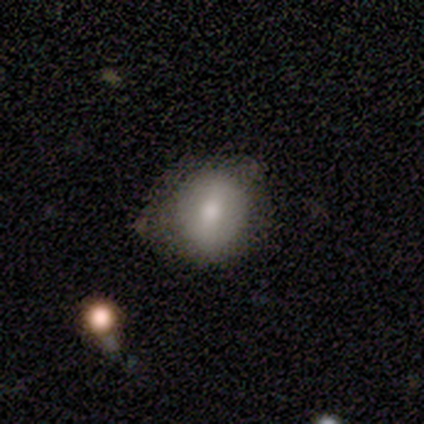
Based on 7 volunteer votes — Smooth or featured? 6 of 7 (86%) said smooth. How rounded? 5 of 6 (83%) said round. Merging? 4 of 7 (57%) said none.